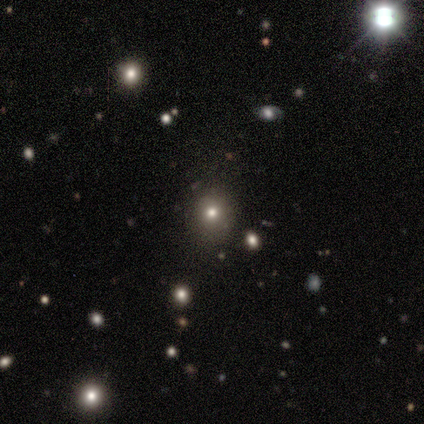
Overall: smooth (50%, tied with star or artifact). How rounded: round (100%). Merging: none (100%).